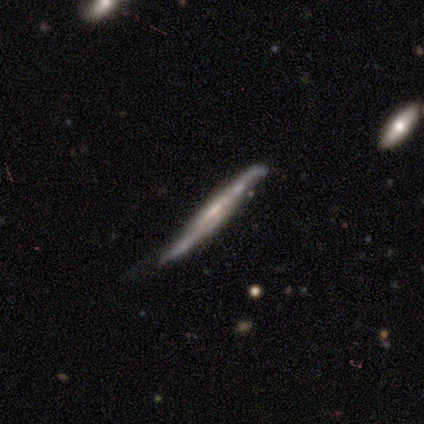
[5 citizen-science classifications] smooth-or-featured: smooth: 60% | featured or disk: 40% | star or artifact: 0%
  how-rounded: cigar-shaped: 100% | round: 0% | in between: 0%
  merging: none: 60% | minor disturbance: 20% | merger: 20% | major disturbance: 0%